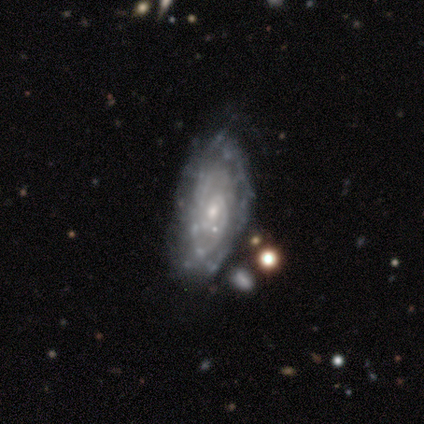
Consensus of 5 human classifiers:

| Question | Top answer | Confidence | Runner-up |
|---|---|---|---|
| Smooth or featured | featured or disk | 80% | smooth (20%) |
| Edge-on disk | no | 75% | yes (25%) |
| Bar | weak | 67% | no (33%) |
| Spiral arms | yes | 100% | — |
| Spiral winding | medium | 67% | loose (33%) |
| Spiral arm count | can't tell | 67% | 4 (33%) |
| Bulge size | small | 100% | — |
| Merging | none | 40% | tied: minor disturbance (40%) |